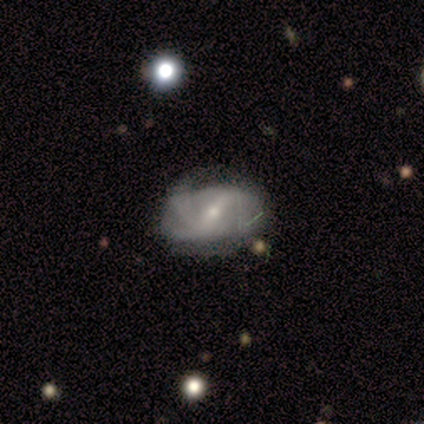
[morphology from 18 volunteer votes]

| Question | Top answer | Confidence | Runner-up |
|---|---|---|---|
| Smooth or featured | featured or disk | 83% | smooth (11%) |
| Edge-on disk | no | 100% | — |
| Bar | strong | 67% | no (20%) |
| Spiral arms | yes | 93% | no (7%) |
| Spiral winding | loose | 50% | medium (29%) |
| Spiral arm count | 2 | 36% | tied: 3 (36%) |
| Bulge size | small | 53% | moderate (47%) |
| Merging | none | 41% | minor disturbance (29%) |